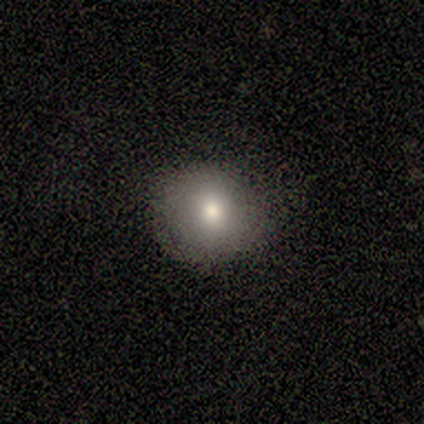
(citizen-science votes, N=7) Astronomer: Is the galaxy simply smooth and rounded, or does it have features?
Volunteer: smooth — 71%.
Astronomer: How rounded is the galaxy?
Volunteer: round — 100%.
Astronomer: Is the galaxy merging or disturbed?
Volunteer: none — 71%.